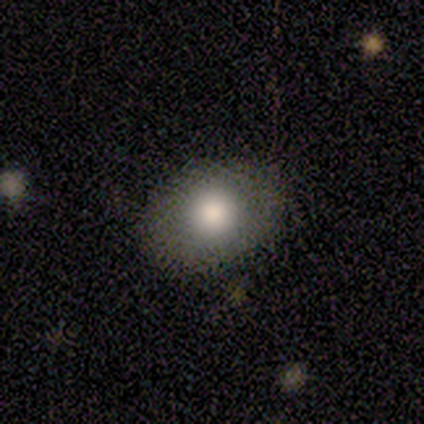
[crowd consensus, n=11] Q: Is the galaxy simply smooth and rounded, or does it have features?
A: smooth — 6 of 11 (55%).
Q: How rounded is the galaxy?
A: in between — 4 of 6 (67%).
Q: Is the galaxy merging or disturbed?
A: none — 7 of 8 (88%).